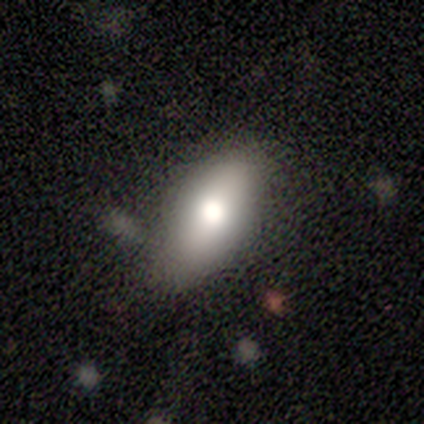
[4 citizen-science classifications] This is likely a smooth galaxy (75%). How rounded: likely in between (67%). Merging: possibly none (50%).